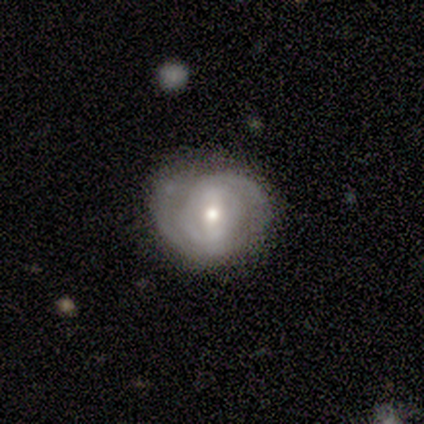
featured or disk 100%, smooth 0%, star or artifact 0%. Down the decision tree: edge-on disk — no (100%); bar — no (80%); spiral arms — yes (100%); spiral arm count — 2 (60%); spiral winding — medium (80%); bulge size — small (80%); merging — none (100%).